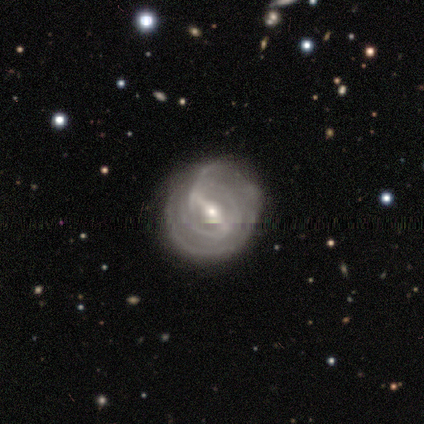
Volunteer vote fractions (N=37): Morphology: type=featured or disk (81%); edge-on=no (97%); bar=strong (69%); spiral arms=yes (97%); winding=tight (71%); arm count=can't tell (32%); bulge=moderate (48%); merging=none (65%).